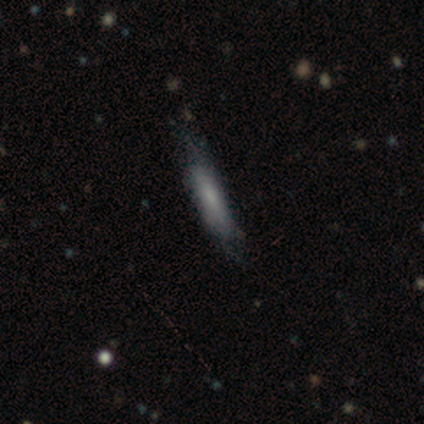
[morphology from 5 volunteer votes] Overall: smooth (60%; featured or disk 40%). How rounded: cigar-shaped (67%; in between 33%). Merging: none (40%, tied with major disturbance).